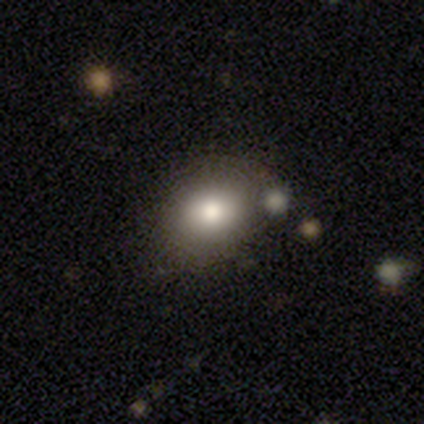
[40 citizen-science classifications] A smooth galaxy with no disk features (75%) that is round (67%). Merging: none (77%).